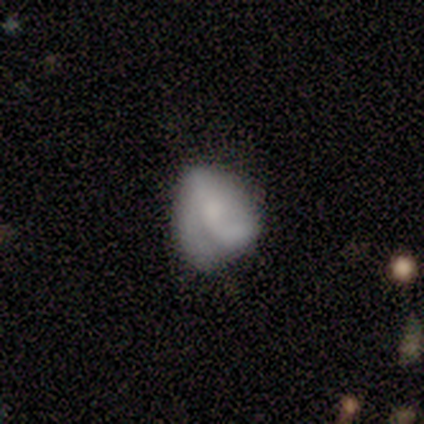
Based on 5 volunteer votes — A smooth galaxy with no disk features (40%, tied with star or artifact) that is in between round and cigar-shaped (100%). Merging: minor disturbance (100%).